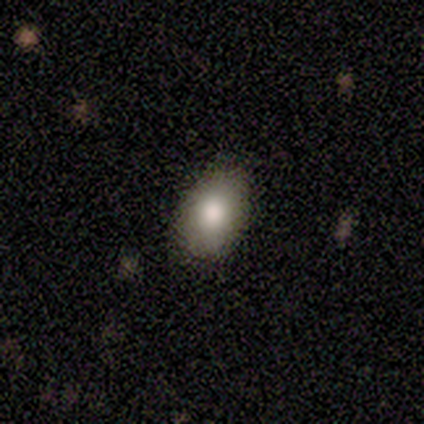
This appears to be a smooth galaxy with no disk features (100%) that is in between round and cigar-shaped (100%). Merging: none (100%).